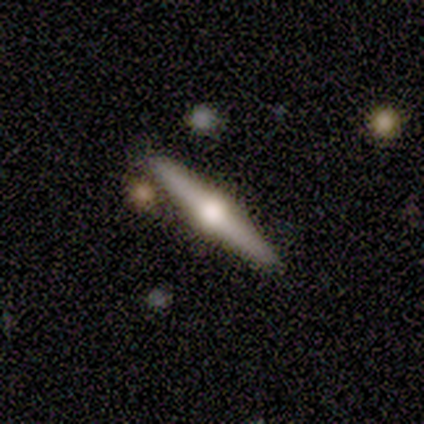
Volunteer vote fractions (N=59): A featured or disk galaxy (85%) viewed edge-on (100%) with a rounded central bulge (100%). Merging: none (79%).